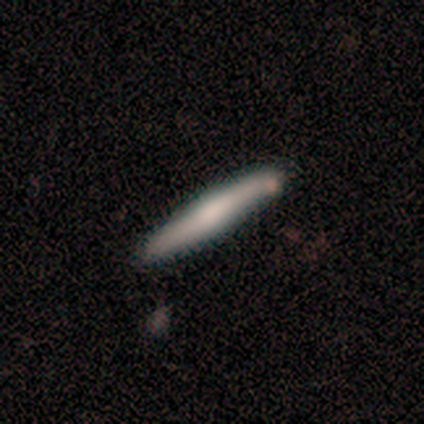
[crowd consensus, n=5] A smooth galaxy with no disk features (60%) that is cigar-shaped (100%). Merging: none (80%).